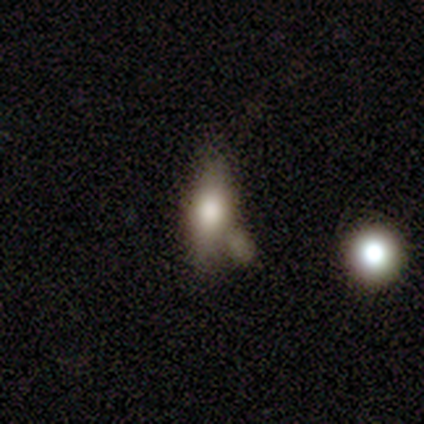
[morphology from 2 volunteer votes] Overall: smooth (50%, tied with star or artifact). How rounded: cigar-shaped (100%). Merging: none (100%).